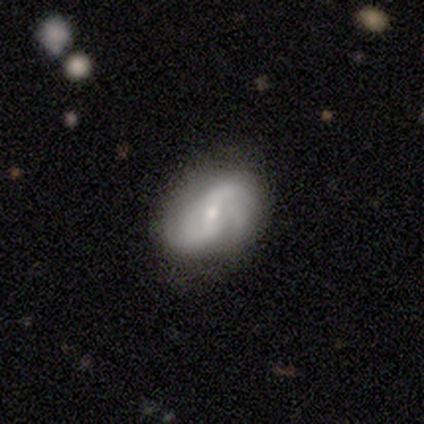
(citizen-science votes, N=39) Smooth or featured: featured or disk — 79% (smooth — 15%)
Edge-on disk: no — 100%
Bar: weak — 45% (no — 35%)
Spiral arms: yes — 94% (no — 6%)
Spiral winding: tight — 38% (tied with medium — 38%)
Spiral arm count: 2 — 52% (can't tell — 28%)
Bulge size: small — 74% (moderate — 26%)
Merging: none — 54% (minor disturbance — 19%)